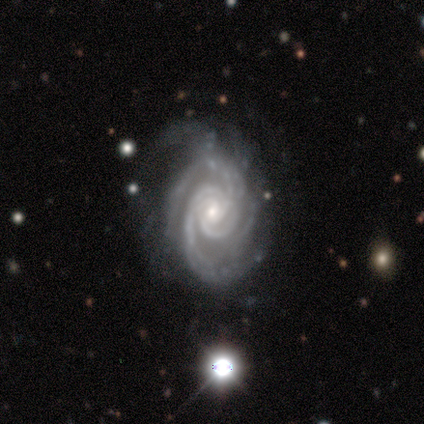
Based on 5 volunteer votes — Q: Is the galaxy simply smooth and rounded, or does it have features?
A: featured or disk — 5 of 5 (100%).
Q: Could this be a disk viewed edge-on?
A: no — 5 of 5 (100%).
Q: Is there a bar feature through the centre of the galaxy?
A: no — 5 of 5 (100%).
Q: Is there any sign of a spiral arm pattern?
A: yes — 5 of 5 (100%).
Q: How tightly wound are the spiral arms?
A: tight — 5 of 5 (100%).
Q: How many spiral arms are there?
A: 3 — 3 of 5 (60%).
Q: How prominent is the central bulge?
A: small — 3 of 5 (60%).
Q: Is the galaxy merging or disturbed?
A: minor disturbance — 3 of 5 (60%).